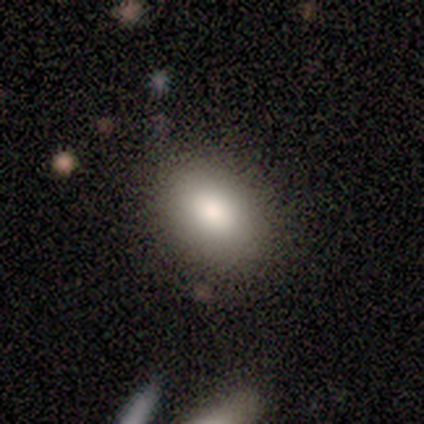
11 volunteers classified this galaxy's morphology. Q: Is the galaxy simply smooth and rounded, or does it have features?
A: smooth — 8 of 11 (73%).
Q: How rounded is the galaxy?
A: in between — 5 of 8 (62%).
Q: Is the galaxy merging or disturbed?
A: none — 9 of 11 (82%).